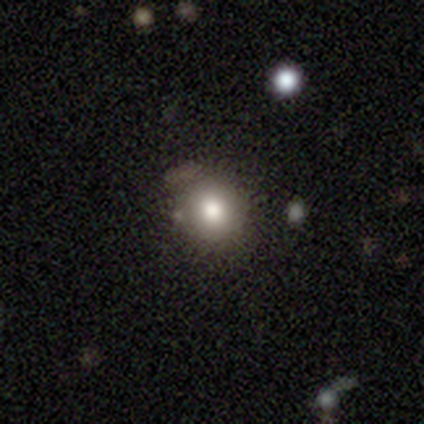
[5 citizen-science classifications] smooth_or_featured: smooth (p=0.40) [tied with: featured or disk p=0.40]
how_rounded: round (p=0.50) [tied with: in between p=0.50]
merging: merger (p=0.75) [alt: minor disturbance p=0.25]